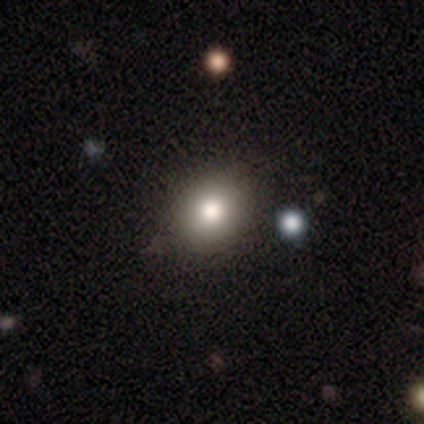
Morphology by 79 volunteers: smooth 76%, featured or disk 13%, star or artifact 11%. Down the decision tree: how rounded — round (78%); merging — none (50%).